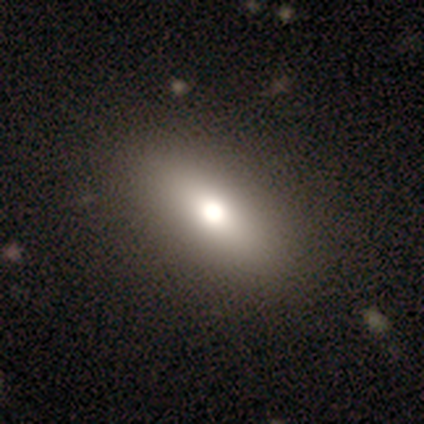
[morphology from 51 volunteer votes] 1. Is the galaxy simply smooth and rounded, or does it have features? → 71% smooth, 24% featured or disk, 6% star or artifact.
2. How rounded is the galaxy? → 69% in between, 22% cigar-shaped, 8% round.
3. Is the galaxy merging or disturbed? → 98% none, 2% minor disturbance, 0% major disturbance, 0% merger.